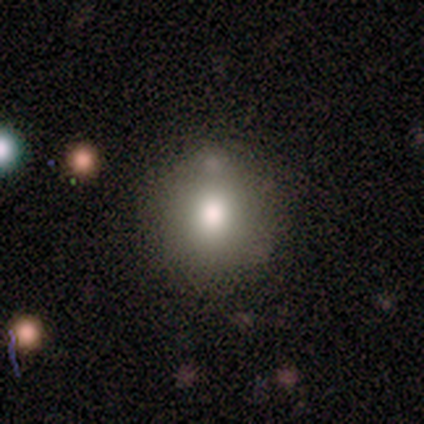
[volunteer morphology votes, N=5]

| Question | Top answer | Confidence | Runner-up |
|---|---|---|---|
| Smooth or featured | smooth | 80% | featured or disk (20%) |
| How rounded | round | 100% | — |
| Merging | none | 100% | — |